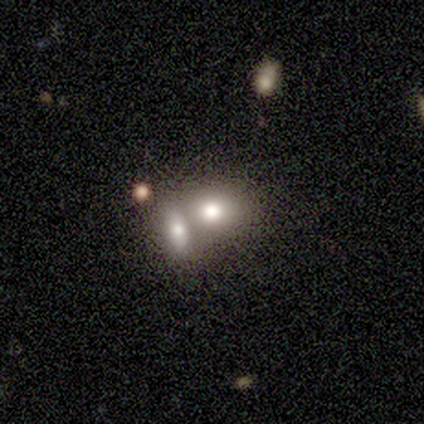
This appears to be a smooth galaxy with no disk features (63%) that is in between round and cigar-shaped (62%). Merging: merger (72%).